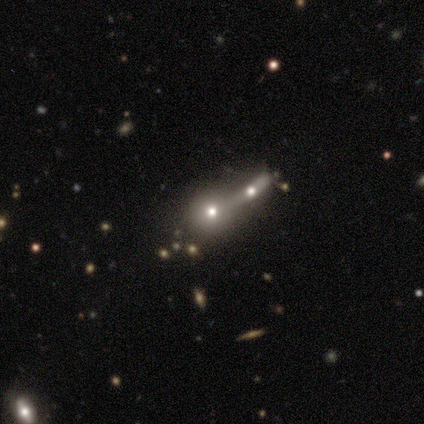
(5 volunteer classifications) This is clearly a smooth galaxy (80%). How rounded: clearly round (100%). Merging: possibly none (50%, tied with merger).